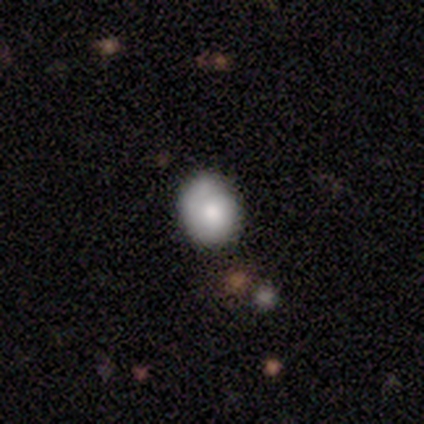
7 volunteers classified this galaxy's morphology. Smooth or featured: smooth — 43% (tied with featured or disk — 43%)
How rounded: round — 67% (in between — 33%)
Merging: none — 67% (minor disturbance — 33%)